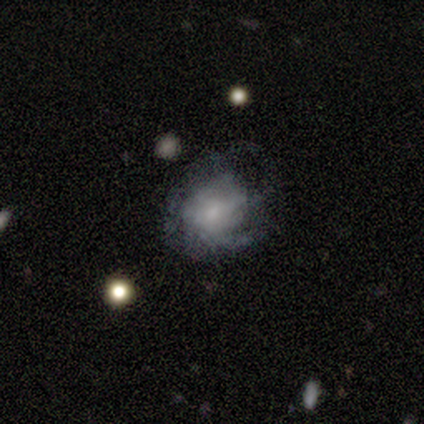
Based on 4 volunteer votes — Smooth or featured: smooth — 50% (tied with featured or disk — 50%)
How rounded: round — 50% (tied with in between — 50%)
Merging: none — 50% (tied with minor disturbance — 50%)